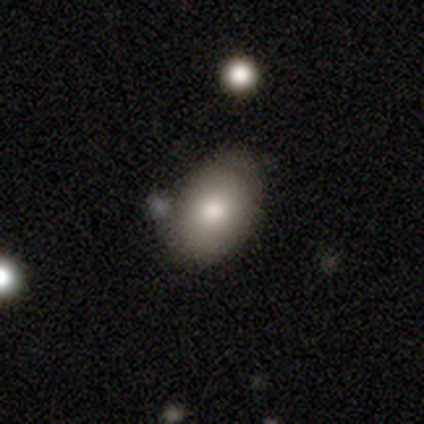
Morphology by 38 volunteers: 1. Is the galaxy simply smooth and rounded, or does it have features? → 82% smooth, 11% featured or disk, 8% star or artifact.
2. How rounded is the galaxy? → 87% in between, 13% round, 0% cigar-shaped.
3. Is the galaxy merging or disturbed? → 51% none, 31% minor disturbance, 17% major disturbance, 0% merger.